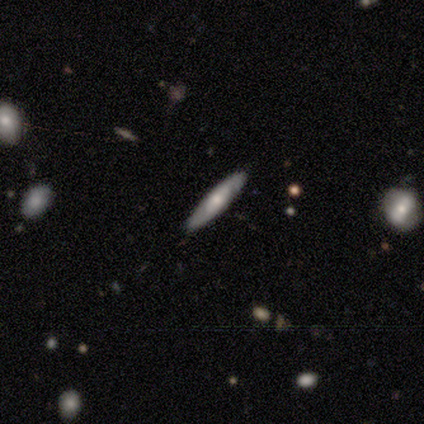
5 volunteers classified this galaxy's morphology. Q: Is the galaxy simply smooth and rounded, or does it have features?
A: featured or disk — 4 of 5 (80%).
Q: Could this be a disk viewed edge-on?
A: yes — 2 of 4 (50%, tied with no).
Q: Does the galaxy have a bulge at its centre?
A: none — 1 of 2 (50%, tied with rounded).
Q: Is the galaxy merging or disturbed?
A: none — 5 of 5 (100%).